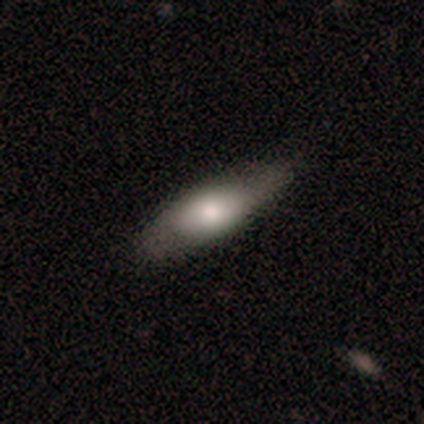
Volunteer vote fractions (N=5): Overall: smooth (100%). How rounded: in between (80%). Merging: none (80%).